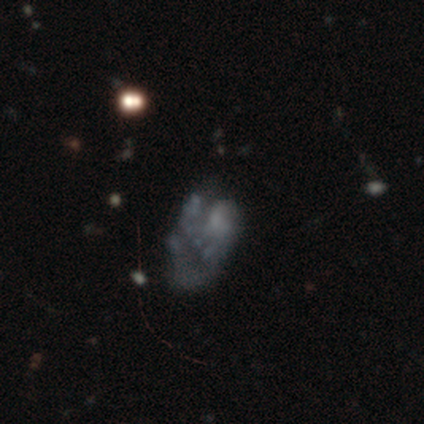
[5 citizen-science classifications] Volunteers were most divided on "merging": major disturbance: 40%, none: 20%, minor disturbance: 20%, merger: 20%. More confident: edge-on disk — no (100%); bar — no (100%); spiral arms — no (100%); smooth or featured — featured or disk (80%); bulge size — none (50%).